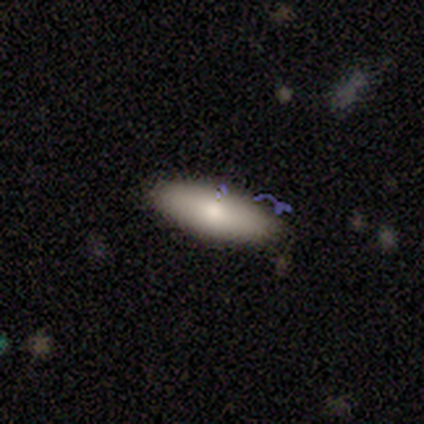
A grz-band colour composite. It shows a smooth galaxy with no disk features (76%) that is in between round and cigar-shaped (72%). Merging: none (84%).